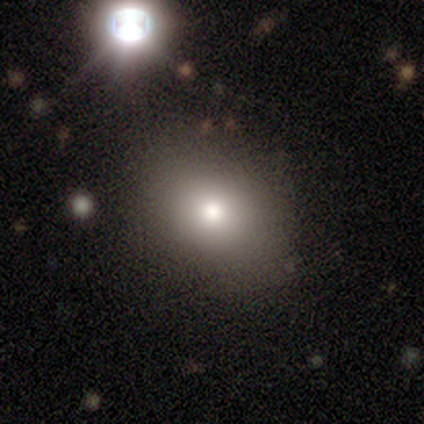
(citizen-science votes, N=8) smooth 88%, featured or disk 12%, star or artifact 0%. Down the decision tree: how rounded — in between (57%); merging — none (100%).